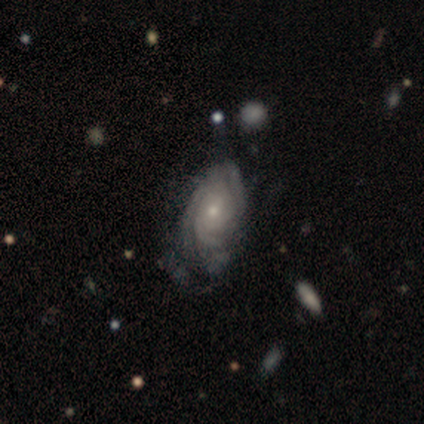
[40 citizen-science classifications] Smooth or featured? featured or disk (88%)
Edge-on disk? no (100%)
Bar? no (77%)
Spiral arms? yes (100%)
Spiral winding? tight (80%)
Spiral arm count? 3 (40%)
Bulge size? small (49%)
Merging? none (56%)